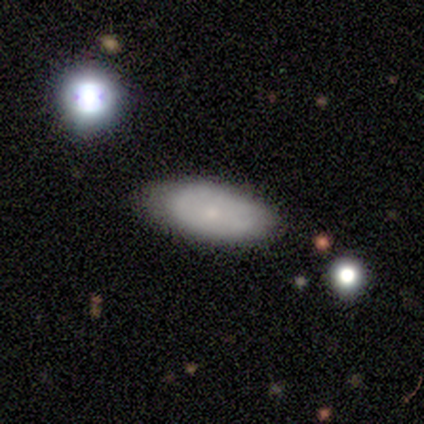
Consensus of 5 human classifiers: This appears to be a smooth galaxy with no disk features (60%) that is in between round and cigar-shaped (67%). Merging: none (75%).